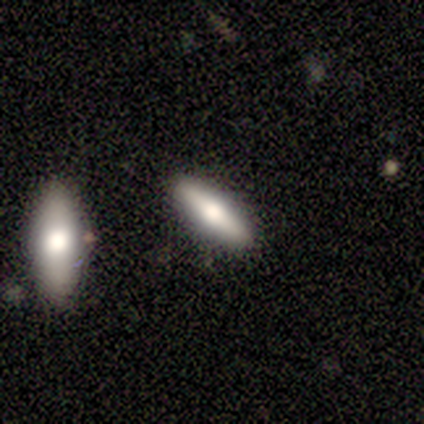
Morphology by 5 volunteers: Overall: smooth (60%; featured or disk 40%). How rounded: cigar-shaped (100%). Merging: none (100%).